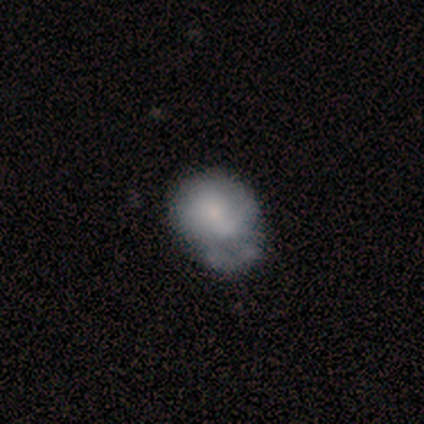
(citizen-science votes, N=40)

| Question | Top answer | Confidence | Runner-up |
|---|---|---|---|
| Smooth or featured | smooth | 52% | featured or disk (45%) |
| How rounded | in between | 67% | round (33%) |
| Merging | minor disturbance | 31% | none (23%) |